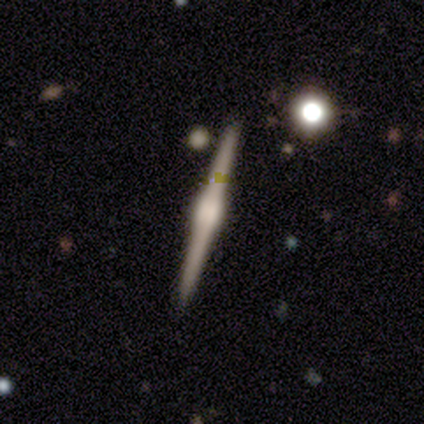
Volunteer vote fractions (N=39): This appears to be a featured or disk galaxy (95%) viewed edge-on (100%) with a rounded central bulge (81%). Merging: none (89%).